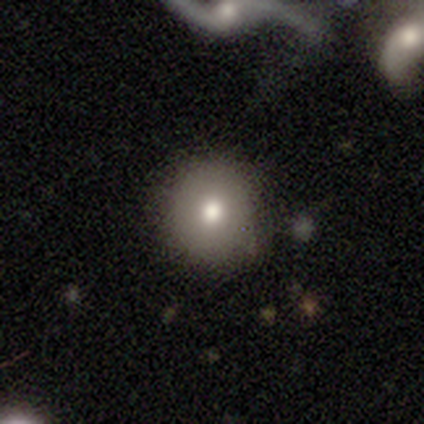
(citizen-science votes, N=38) Smooth or featured?
  - smooth: 74% *
  - featured or disk: 13%
  - star or artifact: 13%
How rounded?
  - round: 89% *
  - in between: 11%
  - cigar-shaped: 0%
Merging?
  - none: 91% *
  - major disturbance: 6%
  - minor disturbance: 3%
  - merger: 0%